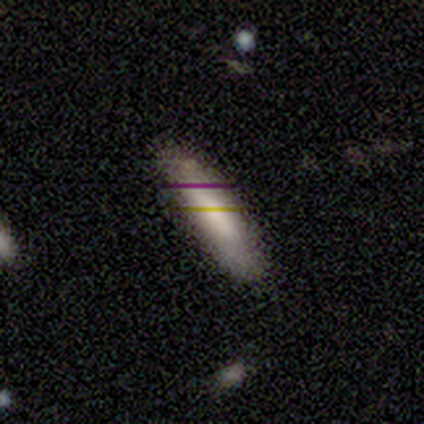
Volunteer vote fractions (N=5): This is likely a star or artifact rather than a galaxy (60%).